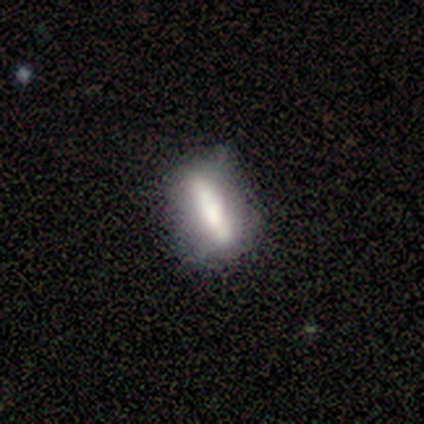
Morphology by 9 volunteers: smooth-or-featured: smooth: 67% | featured or disk: 22% | star or artifact: 11%
  how-rounded: cigar-shaped: 67% | in between: 33% | round: 0%
  merging: none: 75% | minor disturbance: 12% | merger: 12% | major disturbance: 0%